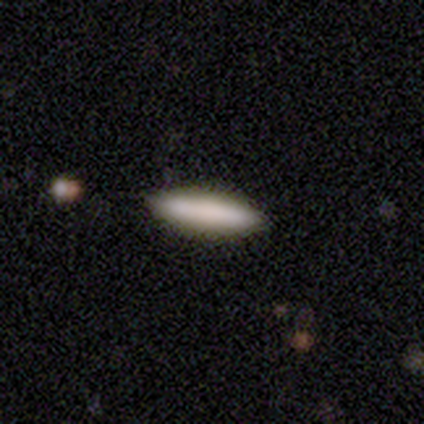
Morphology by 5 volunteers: type=smooth (100%); roundness=cigar-shaped (80%); merging=none (100%).